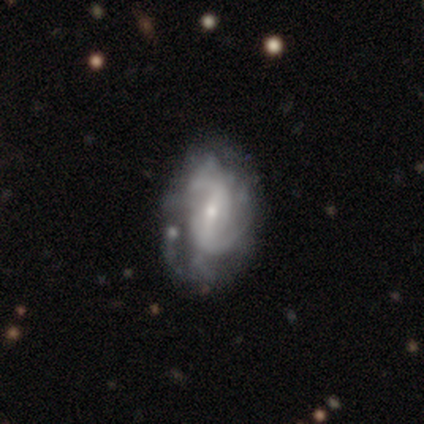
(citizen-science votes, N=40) Smooth or featured: featured or disk — 78% (smooth — 22%)
Edge-on disk: no — 94% (yes — 6%)
Bar: weak — 45% (strong — 34%)
Spiral arms: yes — 66% (no — 34%)
Spiral winding: medium — 42% (loose — 32%)
Spiral arm count: 2 — 89% (more than 4 — 5%)
Bulge size: small — 79% (moderate — 14%)
Merging: none — 42% (tied with minor disturbance — 42%)